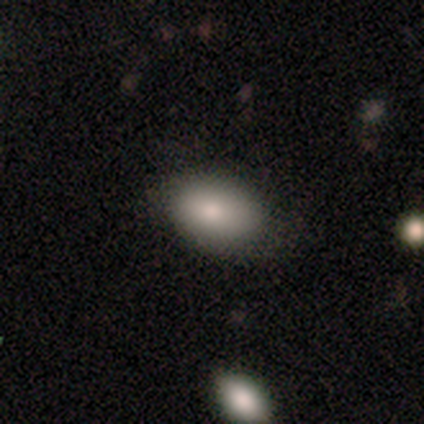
smooth_or_featured: smooth (p=0.90) [alt: star or artifact p=0.07]
how_rounded: in between (p=0.92) [alt: round p=0.05]
merging: none (p=0.68) [alt: minor disturbance p=0.32]